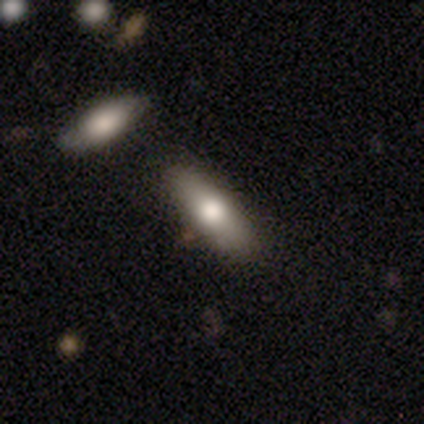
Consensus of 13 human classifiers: Smooth or featured?
  - smooth: 54% *
  - featured or disk: 23%
  - star or artifact: 23%
How rounded?
  - cigar-shaped: 57% *
  - in between: 43%
  - round: 0%
Merging?
  - none: 70% *
  - minor disturbance: 30%
  - major disturbance: 0%
  - merger: 0%